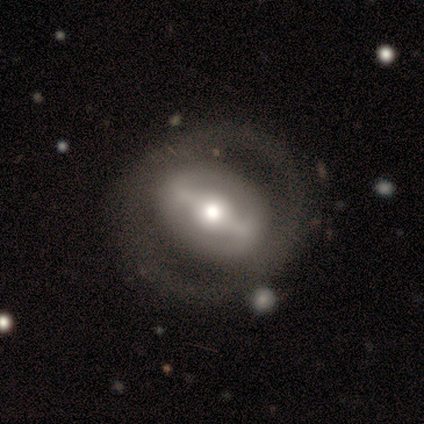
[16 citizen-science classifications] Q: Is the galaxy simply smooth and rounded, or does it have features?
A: featured or disk — 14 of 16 (88%).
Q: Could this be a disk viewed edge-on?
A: no — 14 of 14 (100%).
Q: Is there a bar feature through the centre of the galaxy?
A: strong — 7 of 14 (50%).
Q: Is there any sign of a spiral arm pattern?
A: no — 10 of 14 (71%).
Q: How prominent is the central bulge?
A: moderate — 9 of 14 (64%).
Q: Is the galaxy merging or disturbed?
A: none — 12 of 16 (75%).